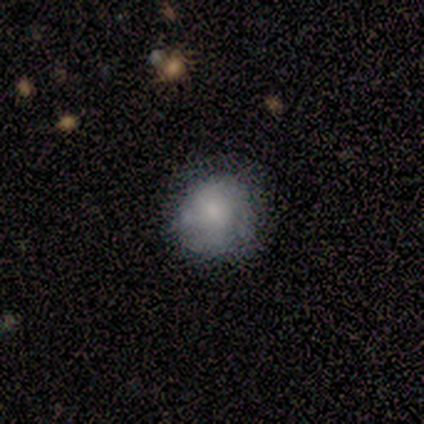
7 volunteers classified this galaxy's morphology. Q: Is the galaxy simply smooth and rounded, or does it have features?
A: smooth — 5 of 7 (71%).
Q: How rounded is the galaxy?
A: round — 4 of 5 (80%).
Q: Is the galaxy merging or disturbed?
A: none — 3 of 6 (50%).